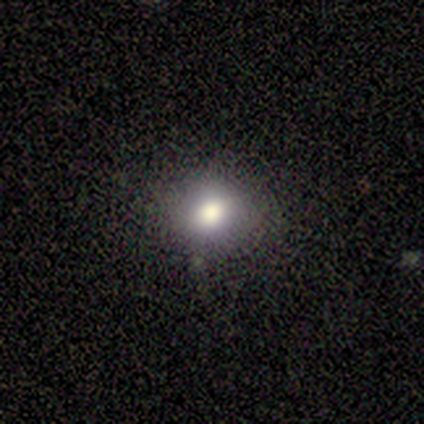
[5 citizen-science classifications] Q: Smooth or featured?
A: smooth (100%)
Q: How rounded?
A: round (80%); runner-up: in between (20%)
Q: Merging?
A: none (80%); runner-up: minor disturbance (20%)